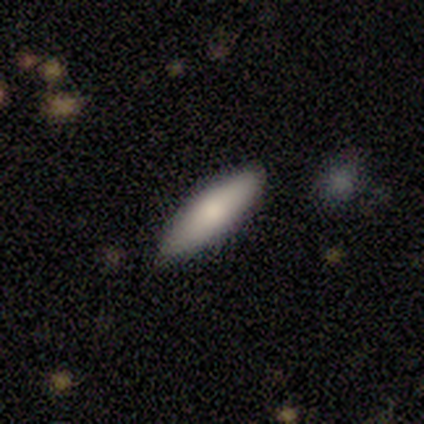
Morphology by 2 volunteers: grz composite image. It shows a smooth galaxy with no disk features (100%) that is cigar-shaped (100%). Merging: none (100%).